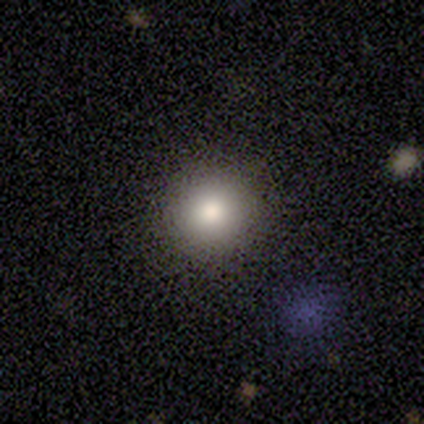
smooth 80%, star or artifact 20%, featured or disk 0%. Down the decision tree: how rounded — round (75%); merging — none (100%).